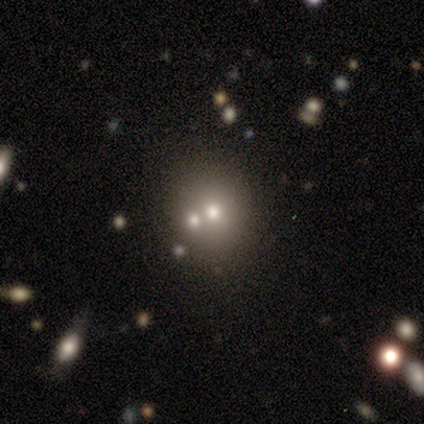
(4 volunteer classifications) Q: Smooth or featured?
A: smooth (75%); runner-up: star or artifact (25%)
Q: How rounded?
A: round (100%)
Q: Merging?
A: none (100%)